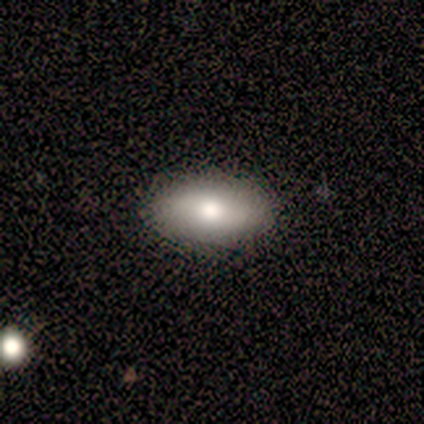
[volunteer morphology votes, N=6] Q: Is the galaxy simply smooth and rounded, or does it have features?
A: featured or disk — 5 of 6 (83%).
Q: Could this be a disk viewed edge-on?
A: no — 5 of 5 (100%).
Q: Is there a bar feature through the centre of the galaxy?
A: no — 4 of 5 (80%).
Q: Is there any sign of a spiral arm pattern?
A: no — 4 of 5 (80%).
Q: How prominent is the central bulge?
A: moderate — 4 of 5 (80%).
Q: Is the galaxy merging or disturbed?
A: none — 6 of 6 (100%).